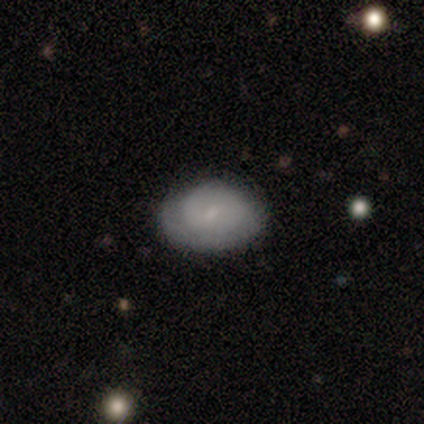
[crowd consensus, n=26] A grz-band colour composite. It shows a featured or disk galaxy (50%) with a weak bar (54%), 2 (60%) tight (90%) spiral arms (77%) and a small central bulge (85%). Merging: none (80%).